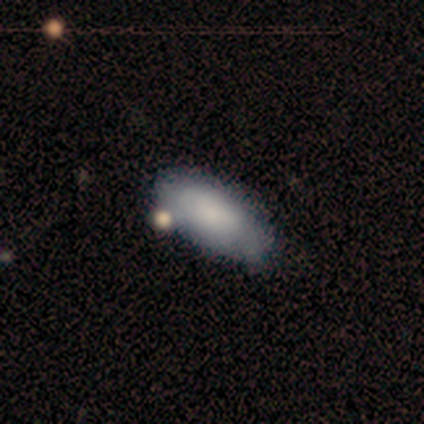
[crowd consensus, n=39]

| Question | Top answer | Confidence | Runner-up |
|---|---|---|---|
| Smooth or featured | smooth | 85% | featured or disk (15%) |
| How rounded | in between | 94% | cigar-shaped (6%) |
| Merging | none | 51% | minor disturbance (8%) |